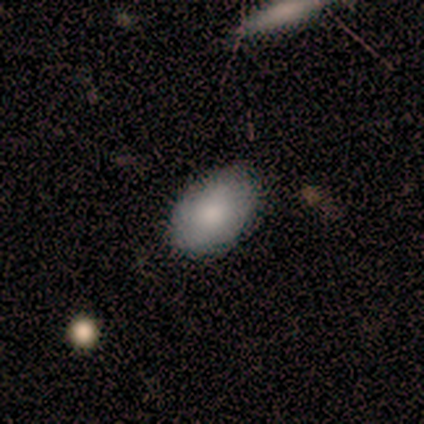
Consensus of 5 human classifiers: Smooth or featured?
  - smooth: 100% *
  - featured or disk: 0%
  - star or artifact: 0%
How rounded?
  - in between: 100% *
  - round: 0%
  - cigar-shaped: 0%
Merging?
  - none: 80% *
  - minor disturbance: 20%
  - major disturbance: 0%
  - merger: 0%